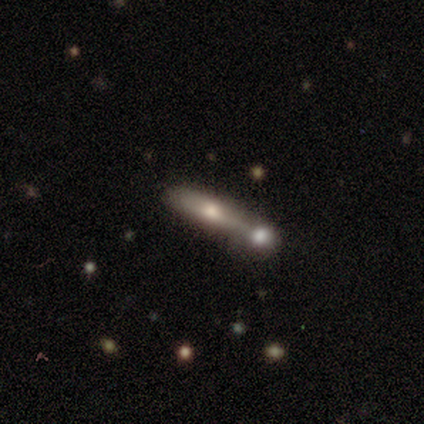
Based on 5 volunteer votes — smooth-or-featured: smooth: 80% | star or artifact: 20% | featured or disk: 0%
  how-rounded: cigar-shaped: 75% | in between: 25% | round: 0%
  merging: none: 50% (tied) | merger: 50% (tied) | minor disturbance: 0% | major disturbance: 0%